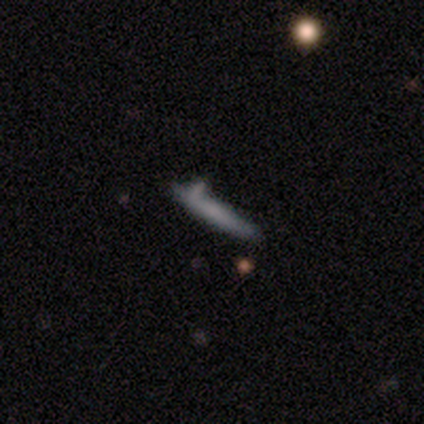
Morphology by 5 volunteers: Smooth or featured? smooth (80%)
How rounded? cigar-shaped (100%)
Merging? none (60%)